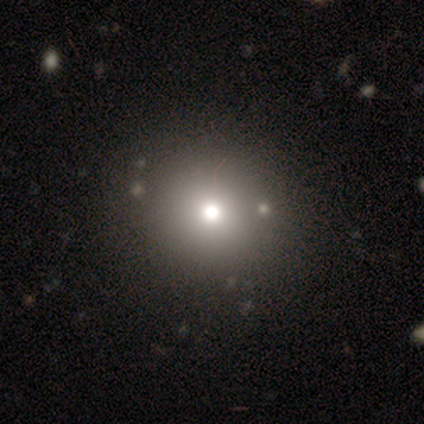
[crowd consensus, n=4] This appears to be a smooth galaxy with no disk features (75%) that is round (100%). Merging: none (100%).